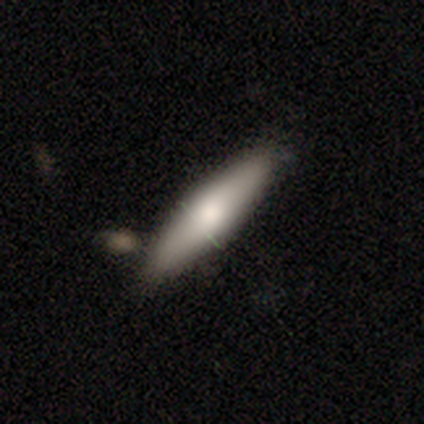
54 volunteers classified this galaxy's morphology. smooth-or-featured: smooth: 69% | featured or disk: 28% | star or artifact: 4%
  how-rounded: cigar-shaped: 76% | in between: 24% | round: 0%
  merging: none: 77% | minor disturbance: 12% | merger: 12% | major disturbance: 0%